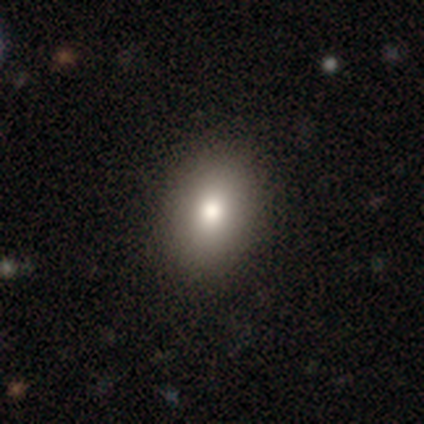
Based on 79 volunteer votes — smooth 89%, featured or disk 8%, star or artifact 4%. Down the decision tree: how rounded — in between (80%); merging — none (58%).